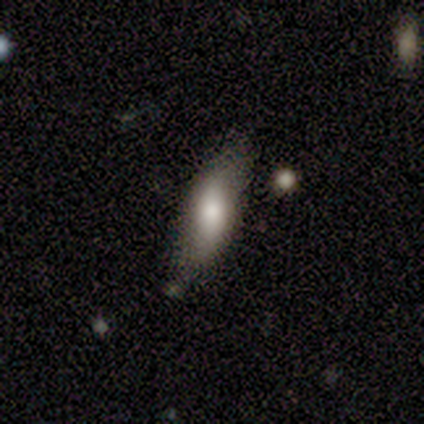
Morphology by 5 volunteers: smooth 60%, featured or disk 40%, star or artifact 0%. Down the decision tree: how rounded — in between (100%); merging — none (100%).